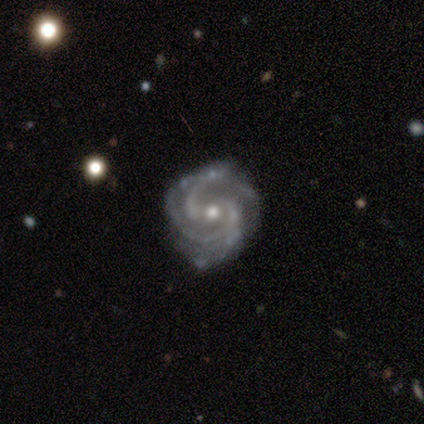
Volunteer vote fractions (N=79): smooth_or_featured: featured or disk (p=0.96) [alt: smooth p=0.03]
disk_edge_on: no (p=1.00)
bar: no (p=0.54) [alt: weak p=0.37]
has_spiral_arms: yes (p=0.99) [alt: no p=0.01]
spiral_winding: tight (p=0.52) [alt: medium p=0.47]
spiral_arm_count: 2 (p=0.41) [alt: 3 p=0.37]
bulge_size: moderate (p=0.57) [alt: small p=0.41]
merging: none (p=0.36) [alt: minor disturbance p=0.12]